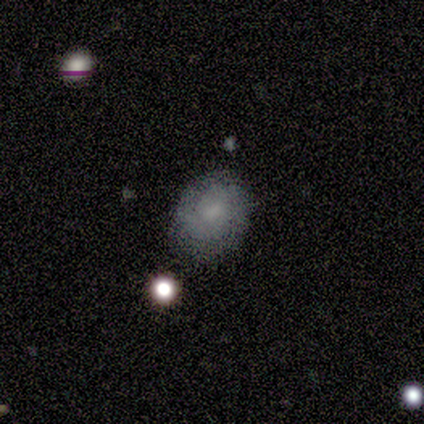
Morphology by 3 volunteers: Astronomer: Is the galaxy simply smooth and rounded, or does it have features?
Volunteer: smooth — 100%.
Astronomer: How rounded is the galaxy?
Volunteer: in between — 67%.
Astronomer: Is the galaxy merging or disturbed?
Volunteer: none — 67%.